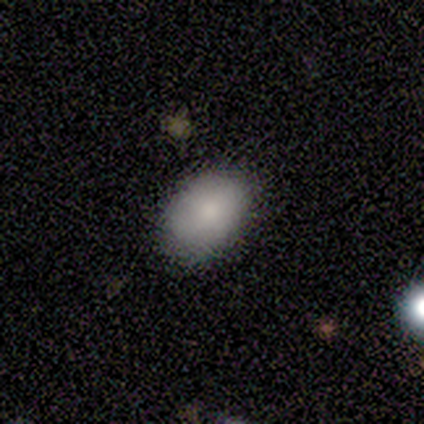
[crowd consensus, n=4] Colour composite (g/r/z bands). It shows a smooth galaxy with no disk features (100%) that is in between round and cigar-shaped (100%). Merging: none (100%).